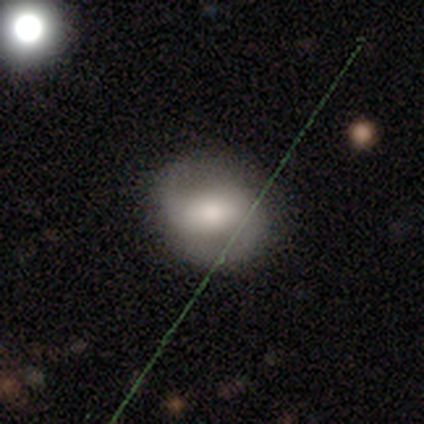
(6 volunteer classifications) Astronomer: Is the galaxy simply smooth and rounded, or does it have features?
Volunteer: smooth — 50%, tied with featured or disk at 50%.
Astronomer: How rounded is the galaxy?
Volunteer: round — 67%.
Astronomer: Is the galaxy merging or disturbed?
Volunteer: none — 100%.